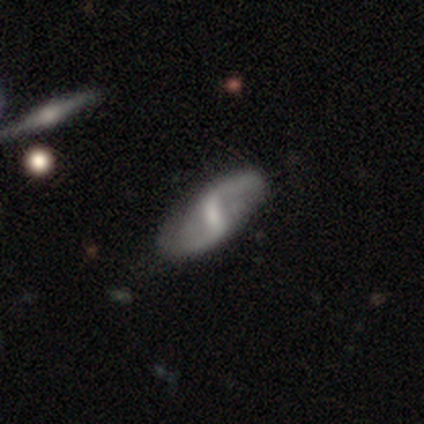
Smooth or featured: featured or disk — 85% (smooth — 10%)
Edge-on disk: no — 97% (yes — 3%)
Bar: strong — 51% (weak — 46%)
Spiral arms: yes — 92% (no — 8%)
Spiral winding: loose — 69% (medium — 23%)
Spiral arm count: 2 — 99% (can't tell — 1%)
Bulge size: small — 41% (moderate — 36%)
Merging: none — 75% (minor disturbance — 22%)